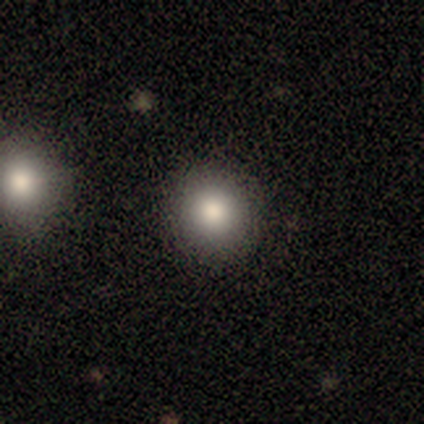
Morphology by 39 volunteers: Volunteers were most divided on "smooth or featured": smooth: 79%, featured or disk: 13%, star or artifact: 8%. More confident: how rounded — round (97%); merging — none (89%).